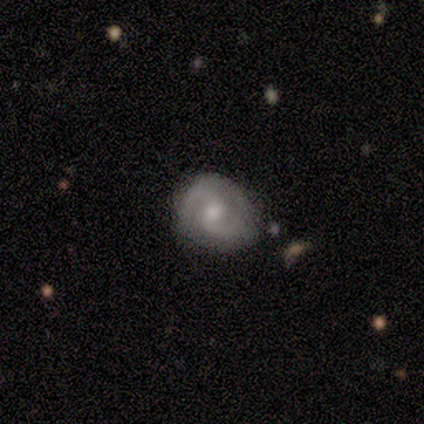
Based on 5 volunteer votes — Morphology: type=featured or disk (100%); edge-on=no (100%); bar=weak (80%); spiral arms=yes (100%); winding=tight (40%, tied with loose); arm count=2 (80%); bulge=moderate (60%); merging=none (60%).